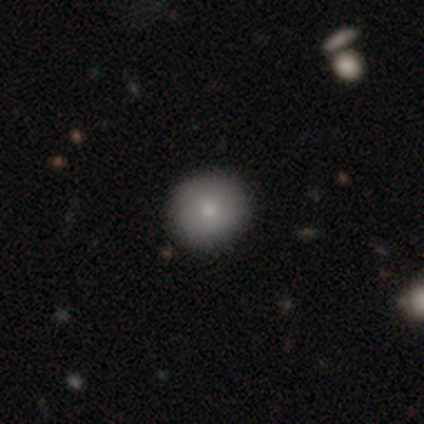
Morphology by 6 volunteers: Volunteers were most divided on "smooth or featured": smooth: 83%, featured or disk: 17%, star or artifact: 0%. More confident: how rounded — round (100%); merging — none (83%).